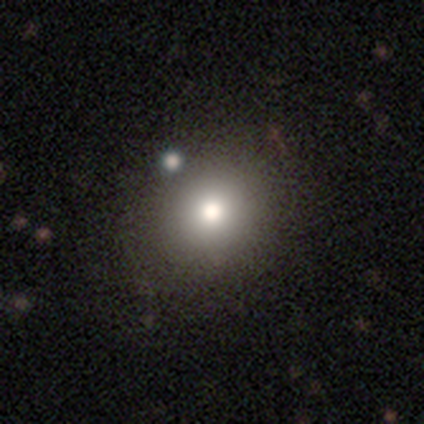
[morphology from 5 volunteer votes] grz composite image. It shows a smooth galaxy with no disk features (40%, tied with featured or disk) that is round (100%). Merging: none (75%).